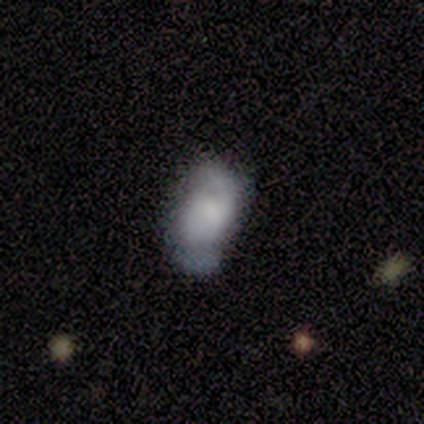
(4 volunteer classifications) smooth_or_featured: smooth (p=0.50) [alt: featured or disk p=0.25]
how_rounded: in between (p=0.50) [tied with: cigar-shaped p=0.50]
merging: none (p=1.00)